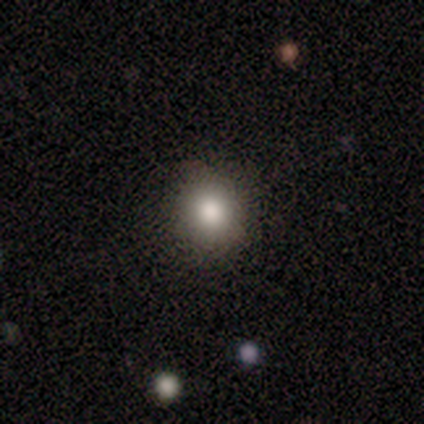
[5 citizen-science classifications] This appears to be a smooth galaxy with no disk features (100%) that is round (100%). Merging: none (80%).